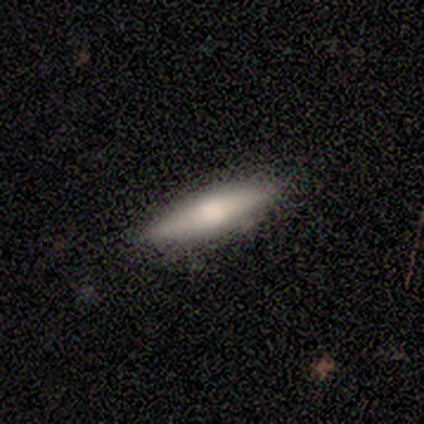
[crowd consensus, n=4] smooth_or_featured: smooth (p=1.00)
how_rounded: cigar-shaped (p=0.75) [alt: in between p=0.25]
merging: none (p=1.00)